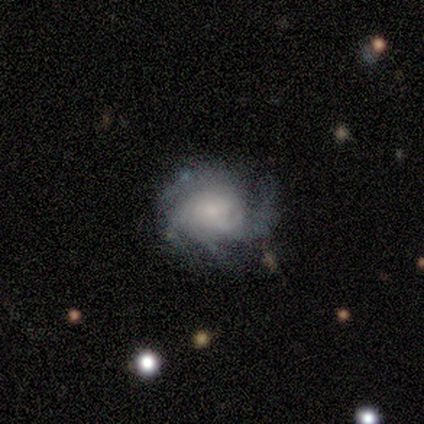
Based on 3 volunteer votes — Smooth or featured?
  - featured or disk: 100% *
  - smooth: 0%
  - star or artifact: 0%
Edge-on disk?
  - no: 100% *
  - yes: 0%
Bar?
  - no: 67% *
  - weak: 33%
  - strong: 0%
Spiral arms?
  - yes: 100% *
  - no: 0%
Spiral winding?
  - tight: 100% *
  - medium: 0%
  - loose: 0%
Spiral arm count?
  - can't tell: 100% *
  - 1: 0%
  - 2: 0%
  - 3: 0%
  - 4: 0%
  - more than 4: 0%
Bulge size?
  - moderate: 33% * (tied)
  - small: 33% * (tied)
  - none: 33% * (tied)
  - dominant: 0%
  - large: 0%
Merging?
  - none: 33% * (tied)
  - minor disturbance: 33% * (tied)
  - major disturbance: 33% * (tied)
  - merger: 0%